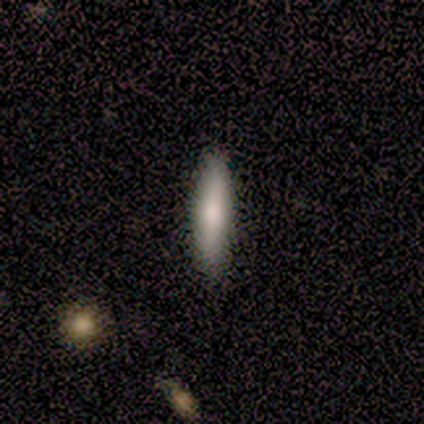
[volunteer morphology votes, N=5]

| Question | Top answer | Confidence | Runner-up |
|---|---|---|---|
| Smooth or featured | smooth | 100% | — |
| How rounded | cigar-shaped | 100% | — |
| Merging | none | 100% | — |